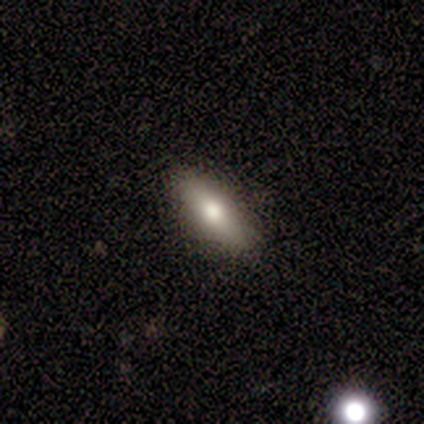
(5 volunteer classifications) A featured or disk galaxy (80%) viewed edge-on (75%) with a rounded central bulge (100%).

Vote fractions:
- Smooth or featured? featured or disk: 80% / smooth: 20% / star or artifact: 0%
- Edge-on disk? yes: 75% / no: 25%
- Edge-on bulge? rounded: 100% / boxy: 0% / none: 0%
- Merging? none: 80% / minor disturbance: 20% / major disturbance: 0% / merger: 0%